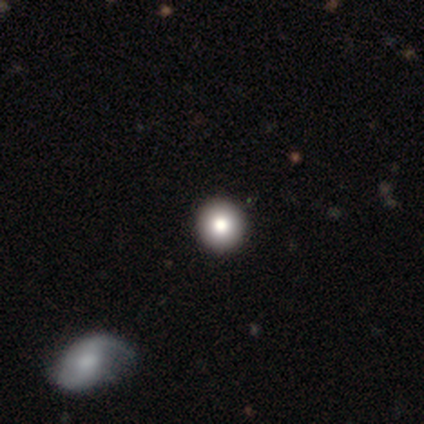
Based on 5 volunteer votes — Overall: smooth (80%). How rounded: round (100%). Merging: none (80%).